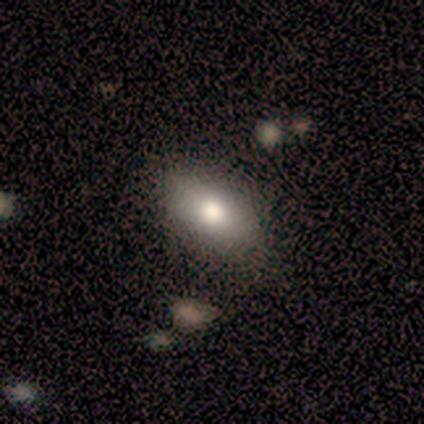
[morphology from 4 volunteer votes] type=smooth (75%); roundness=in between (100%); merging=none (67%).